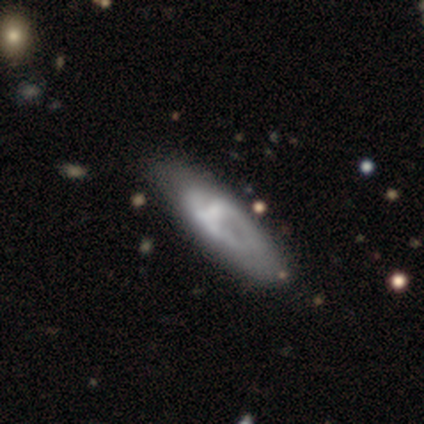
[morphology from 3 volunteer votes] Smooth or featured: featured or disk — 67% (smooth — 33%)
Edge-on disk: yes — 50% (tied with no — 50%)
Edge-on bulge: none — 100%
Merging: none — 100%